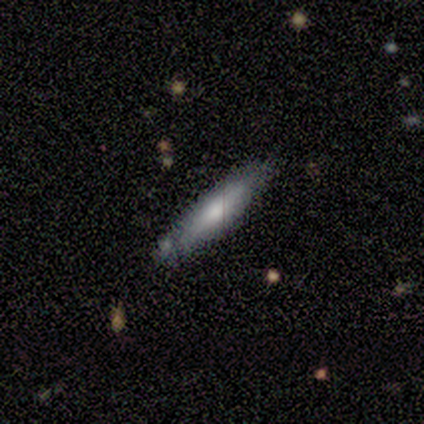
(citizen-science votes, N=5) Smooth or featured? 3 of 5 (60%) said featured or disk. Edge-on disk? 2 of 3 (67%) said yes. Edge-on bulge? 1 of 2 (50%, tied with rounded) said none. Merging? 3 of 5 (60%) said none.